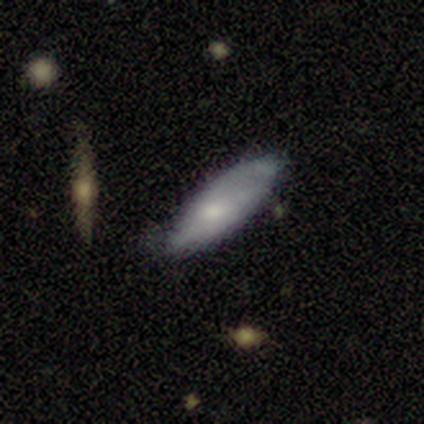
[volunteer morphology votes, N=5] Smooth or featured? 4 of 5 (80%) said smooth. How rounded? 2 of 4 (50%, tied with cigar-shaped) said in between. Merging? 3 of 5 (60%) said minor disturbance.